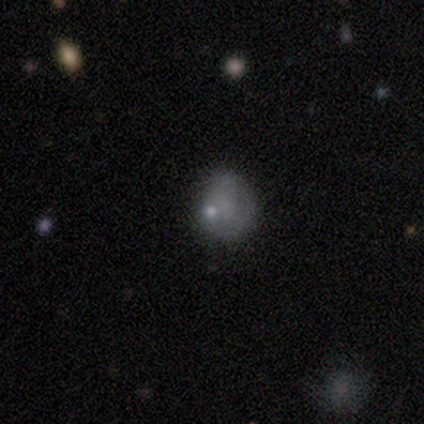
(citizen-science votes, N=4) A featured or disk galaxy (50%) with no bar (100%), no spiral arms (100%) and a moderate central bulge (50%, tied with none).

Vote fractions:
- Smooth or featured? featured or disk: 50% / smooth: 25% / star or artifact: 25%
- Edge-on disk? no: 100% / yes: 0%
- Bar? no: 100% / strong: 0% / weak: 0%
- Spiral arms? no: 100% / yes: 0%
- Bulge size? moderate: 50% (tied) / none: 50% (tied) / dominant: 0% / large: 0% / small: 0%
- Merging? none: 33% (tied) / minor disturbance: 33% (tied) / major disturbance: 33% (tied) / merger: 0%